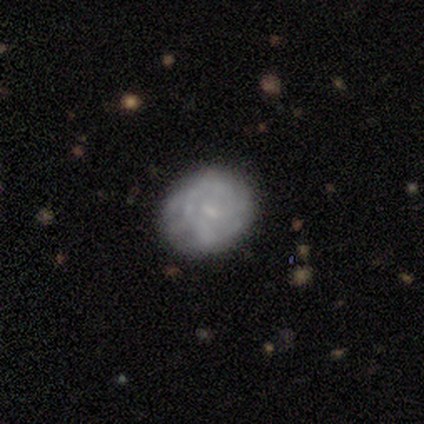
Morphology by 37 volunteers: Smooth or featured: featured or disk — 51% (smooth — 43%)
Edge-on disk: no — 100%
Bar: weak — 53% (no — 37%)
Spiral arms: yes — 58% (no — 42%)
Spiral winding: tight — 45% (medium — 27%)
Spiral arm count: 1 — 45% (can't tell — 36%)
Bulge size: small — 68% (none — 32%)
Merging: none — 71% (minor disturbance — 17%)